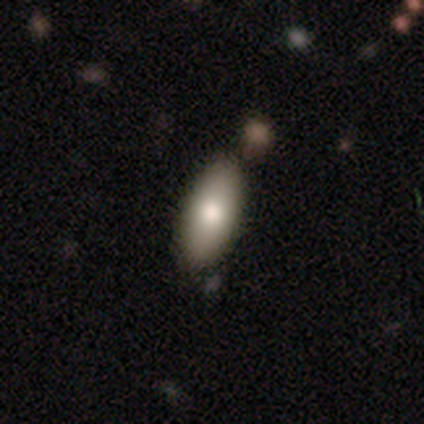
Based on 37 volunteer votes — Volunteers were most divided on "merging": none: 74%, merger: 21%, minor disturbance: 6%, major disturbance: 0%. More confident: how rounded — in between (93%); smooth or featured — smooth (76%).